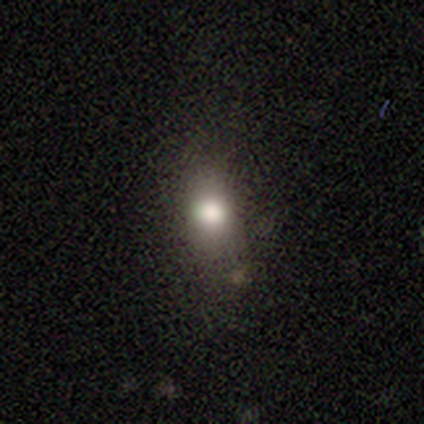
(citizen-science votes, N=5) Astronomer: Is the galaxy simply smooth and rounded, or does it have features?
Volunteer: smooth — 100%.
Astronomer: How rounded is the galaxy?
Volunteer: round — 40%, tied with in between at 40%.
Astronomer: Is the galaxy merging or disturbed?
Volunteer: none — 80%.